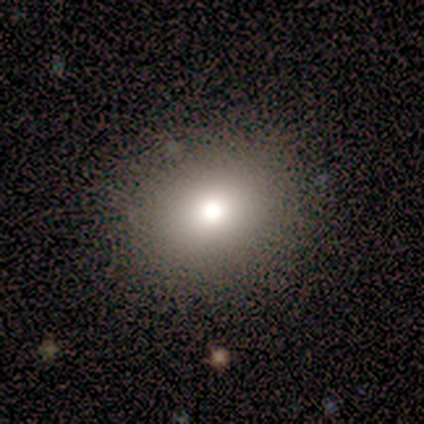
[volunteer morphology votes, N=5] This is clearly a smooth galaxy (100%). How rounded: clearly round (80%). Merging: clearly none (80%).